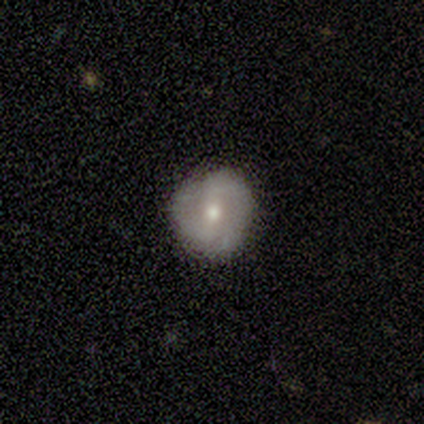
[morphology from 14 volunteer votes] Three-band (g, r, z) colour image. It shows a featured or disk galaxy (79%) with a strong bar (36%, tied with no), 2 (83%) medium (100%) spiral arms (55%) and a moderate central bulge (64%). Merging: none (86%).